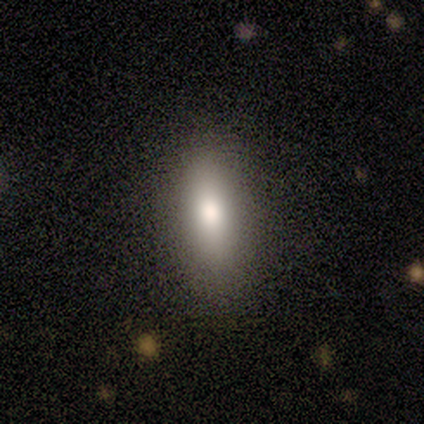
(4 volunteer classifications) This appears to be a smooth galaxy with no disk features (75%) that is in between round and cigar-shaped (67%). Merging: none (100%).